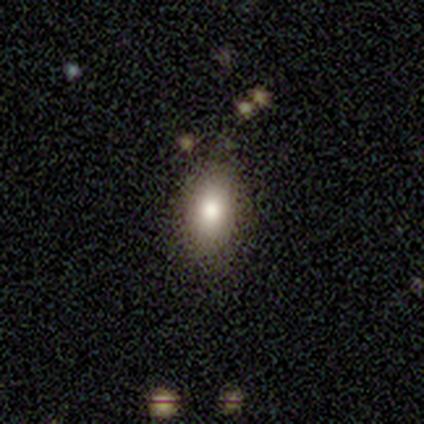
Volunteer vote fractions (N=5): Morphology: type=smooth (100%); roundness=in between (100%); merging=none (100%).